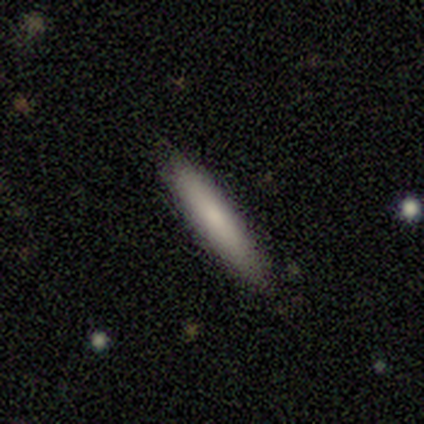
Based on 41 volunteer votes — Morphology: type=smooth (76%); roundness=cigar-shaped (90%); merging=none (88%).